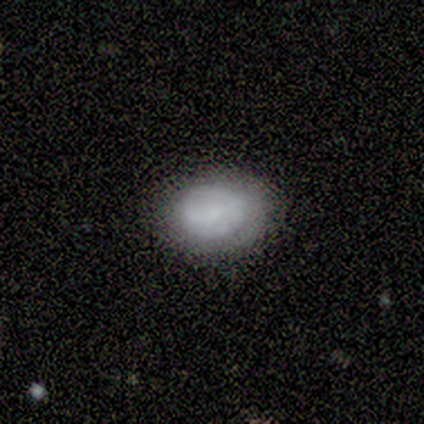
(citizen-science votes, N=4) Overall: smooth (50%, tied with featured or disk). How rounded: round (100%). Merging: none (75%).